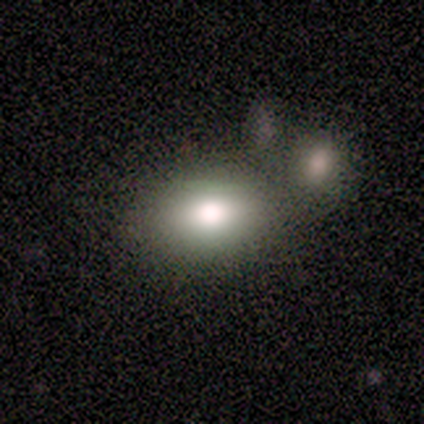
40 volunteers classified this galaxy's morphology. smooth-or-featured: smooth: 75% | featured or disk: 18% | star or artifact: 8%
  how-rounded: in between: 73% | round: 27% | cigar-shaped: 0%
  merging: none: 41% | merger: 35% | minor disturbance: 16% | major disturbance: 8%